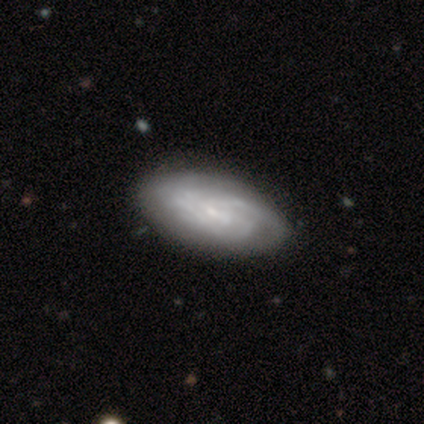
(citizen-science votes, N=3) A featured or disk galaxy (100%) with no bar (67%), 2 (33%, tied with 3 and can't tell) tight (67%) spiral arms (100%) and a small central bulge (100%). Merging: none (100%).